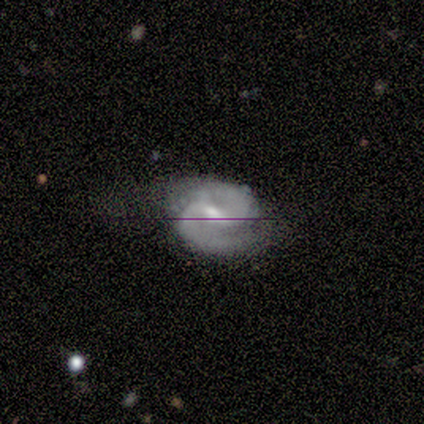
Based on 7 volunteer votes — Volunteers were most divided on "merging": none: 50%, major disturbance: 33%, minor disturbance: 17%, merger: 0%. More confident: edge-on disk — no (100%); spiral arms — yes (100%); spiral arm count — 2 (100%); smooth or featured — featured or disk (86%); bar — strong (67%); spiral winding — medium (67%); bulge size — moderate (67%).